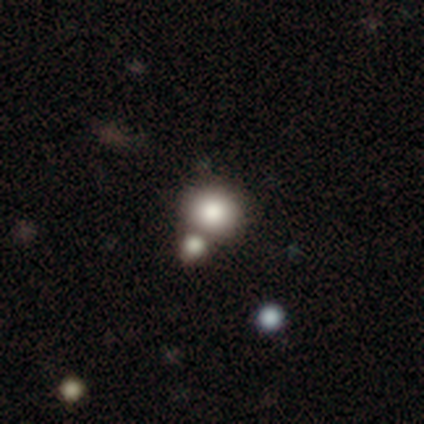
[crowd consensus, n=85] Morphology: type=smooth (72%); roundness=round (85%); merging=none (51%).